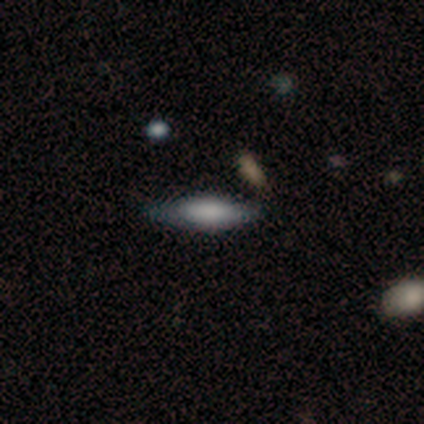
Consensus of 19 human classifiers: Volunteers were most divided on "smooth or featured": smooth: 58%, featured or disk: 37%, star or artifact: 5%. More confident: merging — none (72%); how rounded — cigar-shaped (64%).